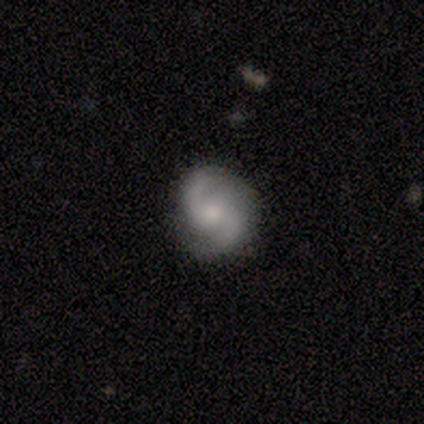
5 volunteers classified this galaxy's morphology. Q: Smooth or featured?
A: featured or disk (100%)
Q: Edge-on disk?
A: no (100%)
Q: Bar?
A: no (80%); runner-up: weak (20%)
Q: Spiral arms?
A: yes (80%); runner-up: no (20%)
Q: Spiral winding?
A: medium (50%); tied with: loose (50%)
Q: Spiral arm count?
A: 2 (75%); runner-up: 1 (25%)
Q: Bulge size?
A: small (40%); tied with: none (40%)
Q: Merging?
A: none (80%); runner-up: minor disturbance (20%)